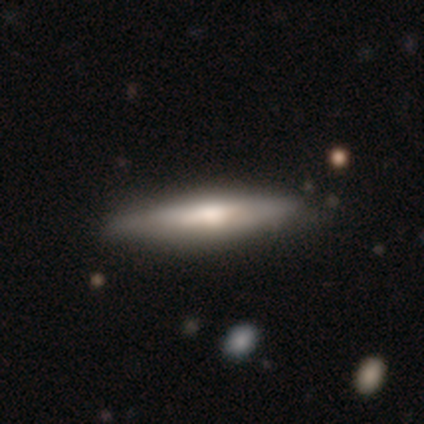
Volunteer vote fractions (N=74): Q: Smooth or featured?
A: smooth (57%); runner-up: featured or disk (41%)
Q: How rounded?
A: cigar-shaped (90%); runner-up: in between (10%)
Q: Merging?
A: none (38%); runner-up: minor disturbance (12%)